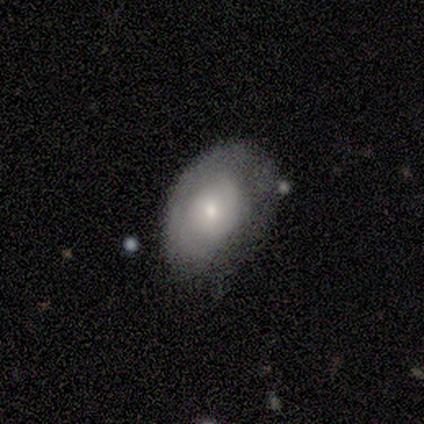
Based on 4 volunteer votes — A smooth galaxy with no disk features (50%, tied with featured or disk) that is round (100%). Merging: none (75%).